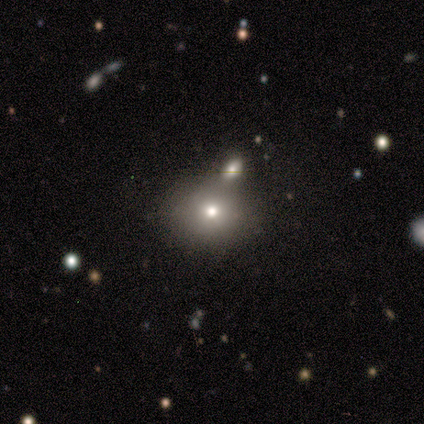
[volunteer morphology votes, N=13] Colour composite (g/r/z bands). It shows a smooth galaxy with no disk features (69%) that is round (78%). Merging: none (91%).